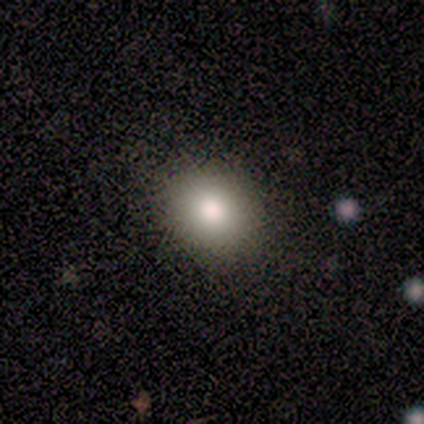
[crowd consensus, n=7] Smooth or featured?
  - smooth: 71% *
  - featured or disk: 14%
  - star or artifact: 14%
How rounded?
  - round: 80% *
  - in between: 20%
  - cigar-shaped: 0%
Merging?
  - none: 83% *
  - minor disturbance: 17%
  - major disturbance: 0%
  - merger: 0%